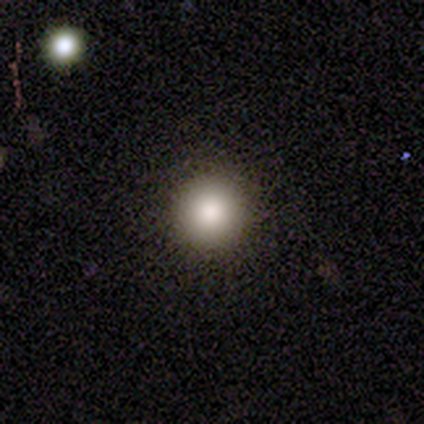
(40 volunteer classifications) smooth_or_featured: smooth (p=0.82) [alt: star or artifact p=0.15]
how_rounded: round (p=0.97) [alt: in between p=0.03]
merging: none (p=0.94) [alt: minor disturbance p=0.03]